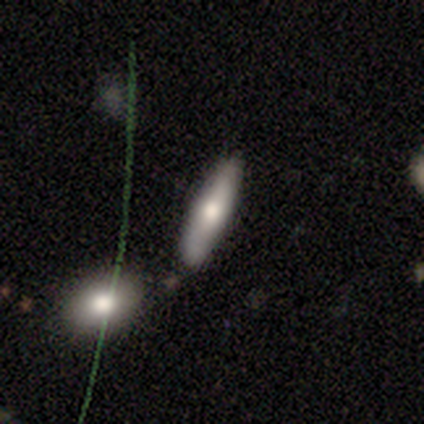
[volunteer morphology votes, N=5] Smooth or featured?
  - smooth: 80% *
  - star or artifact: 20%
  - featured or disk: 0%
How rounded?
  - cigar-shaped: 75% *
  - in between: 25%
  - round: 0%
Merging?
  - none: 100% *
  - minor disturbance: 0%
  - major disturbance: 0%
  - merger: 0%